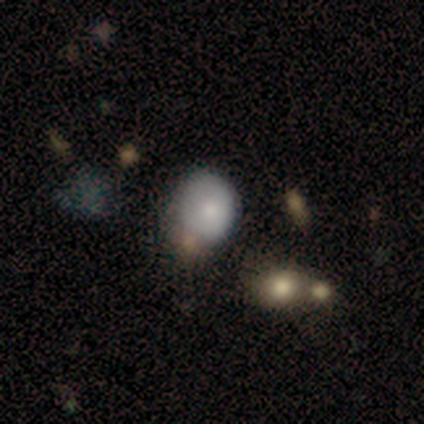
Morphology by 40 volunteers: A smooth galaxy with no disk features (75%) that is round (70%).

Vote fractions:
- Smooth or featured? smooth: 75% / star or artifact: 15% / featured or disk: 10%
- How rounded? round: 70% / in between: 30% / cigar-shaped: 0%
- Merging? none: 47% / minor disturbance: 32% / merger: 15% / major disturbance: 6%